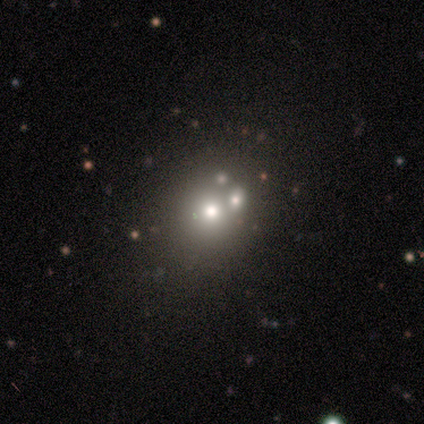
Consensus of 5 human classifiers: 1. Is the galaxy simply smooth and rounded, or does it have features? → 40% smooth (tied), 40% featured or disk (tied), 20% star or artifact.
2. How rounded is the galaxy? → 50% round (tied), 50% in between (tied), 0% cigar-shaped.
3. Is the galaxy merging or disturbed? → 50% none (tied), 50% merger (tied), 0% minor disturbance, 0% major disturbance.